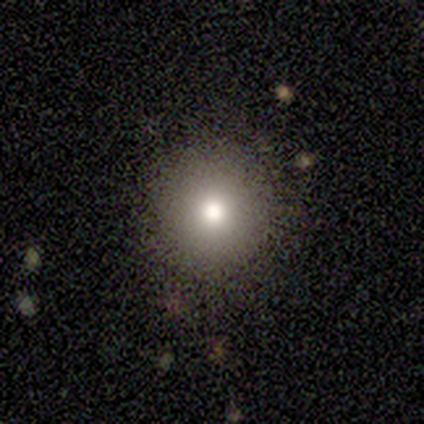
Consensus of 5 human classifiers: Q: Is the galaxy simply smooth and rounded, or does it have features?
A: smooth — 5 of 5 (100%).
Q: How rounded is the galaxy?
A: round — 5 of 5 (100%).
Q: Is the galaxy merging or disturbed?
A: none — 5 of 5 (100%).